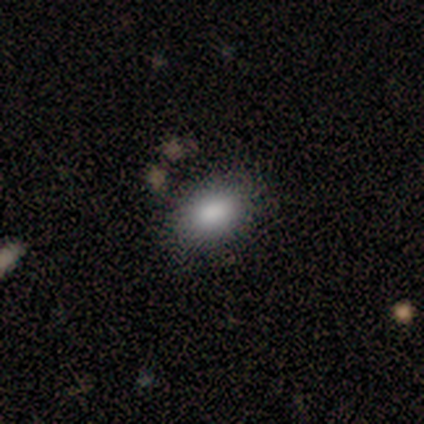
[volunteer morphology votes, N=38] A smooth galaxy with no disk features (82%) that is in between round and cigar-shaped (84%). Merging: none (79%).